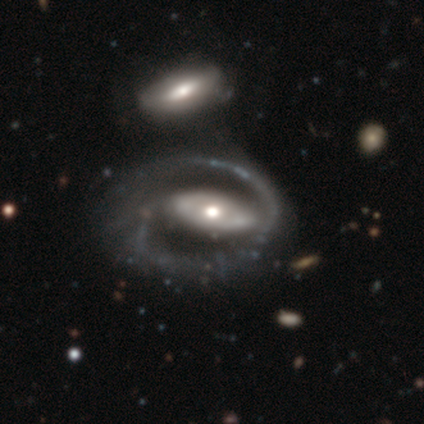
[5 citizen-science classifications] Smooth or featured? featured or disk (80%)
Edge-on disk? no (100%)
Bar? no (75%)
Spiral arms? yes (75%)
Spiral winding? tight (33%, tied with medium and loose)
Spiral arm count? 1 (67%)
Bulge size? moderate (75%)
Merging? none (40%)